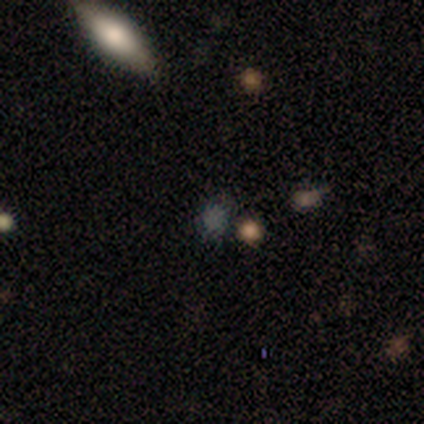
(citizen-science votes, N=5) This is likely a smooth galaxy (60%). How rounded: likely in between (67%). Merging: clearly none (100%).